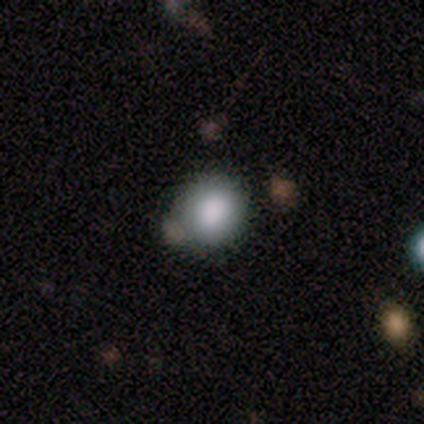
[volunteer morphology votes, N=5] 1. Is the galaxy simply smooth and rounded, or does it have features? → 100% smooth, 0% featured or disk, 0% star or artifact.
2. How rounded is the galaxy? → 100% round, 0% in between, 0% cigar-shaped.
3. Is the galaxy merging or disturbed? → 80% none, 20% minor disturbance, 0% major disturbance, 0% merger.